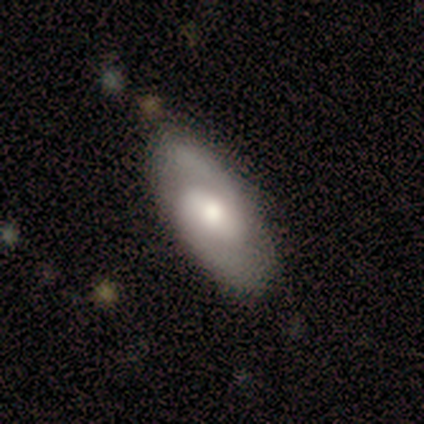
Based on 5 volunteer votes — A featured or disk galaxy (60%) with a strong bar (33%, tied with weak and no), 2 (100%) medium (67%) spiral arms (100%) and a large central bulge (33%, tied with moderate and none). Merging: none (80%).